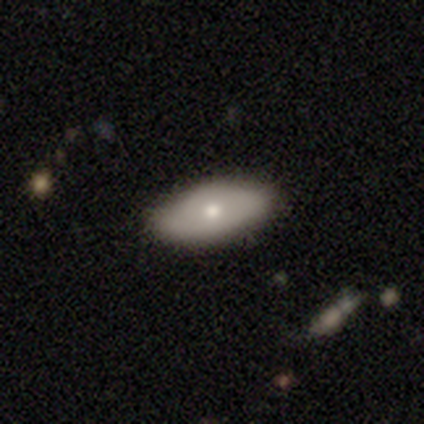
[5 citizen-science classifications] smooth-or-featured: smooth: 80% | featured or disk: 20% | star or artifact: 0%
  how-rounded: in between: 100% | round: 0% | cigar-shaped: 0%
  merging: none: 80% | minor disturbance: 20% | major disturbance: 0% | merger: 0%